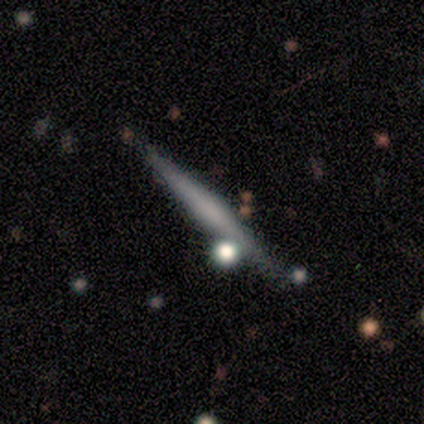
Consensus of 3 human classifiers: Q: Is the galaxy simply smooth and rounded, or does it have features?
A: featured or disk — 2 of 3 (67%).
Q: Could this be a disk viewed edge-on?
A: yes — 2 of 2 (100%).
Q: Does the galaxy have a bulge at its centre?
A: none — 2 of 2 (100%).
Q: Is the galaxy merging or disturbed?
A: none — 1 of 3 (33%, tied with minor disturbance and merger).